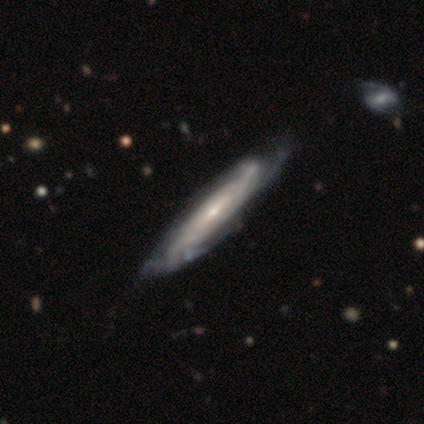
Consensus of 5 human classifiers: Overall: featured or disk (100%). Edge-on disk: no (80%). Bar: no (75%). Spiral arms: yes (100%). Spiral arm count: 2 (25%, tied with 3, more than 4 and can't tell). Spiral winding: tight (50%, tied with medium). Bulge size: moderate (75%). Merging: none (60%; minor disturbance 40%).